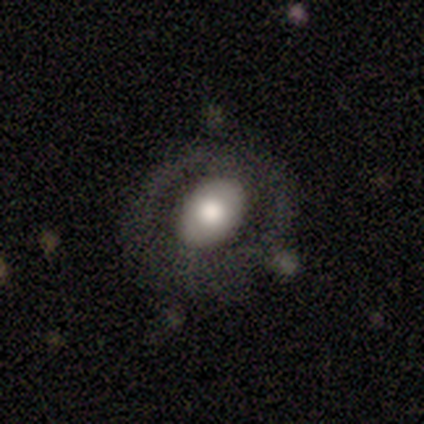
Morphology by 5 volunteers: Overall: smooth (60%; featured or disk 40%). How rounded: in between (100%). Merging: none (60%; minor disturbance 20%).